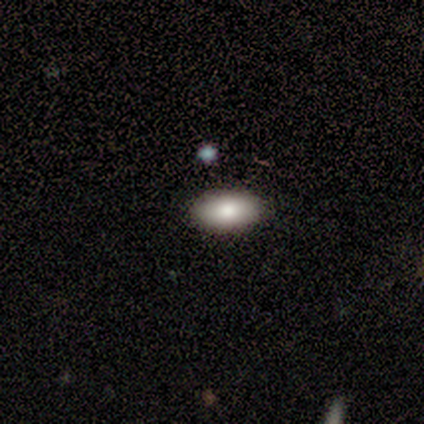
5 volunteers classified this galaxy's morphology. A smooth galaxy with no disk features (80%) that is in between round and cigar-shaped (100%).

Vote fractions:
- Smooth or featured? smooth: 80% / star or artifact: 20% / featured or disk: 0%
- How rounded? in between: 100% / round: 0% / cigar-shaped: 0%
- Merging? none: 100% / minor disturbance: 0% / major disturbance: 0% / merger: 0%